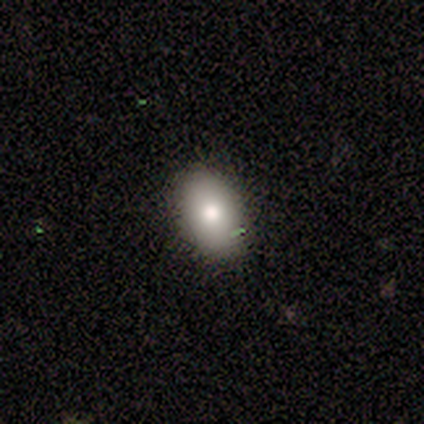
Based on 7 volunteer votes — smooth 86%, featured or disk 14%, star or artifact 0%. Down the decision tree: how rounded — in between (67%); merging — none (100%).